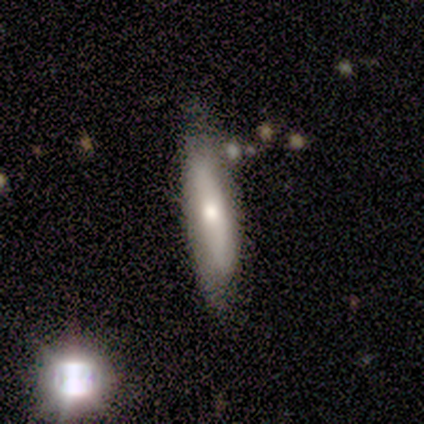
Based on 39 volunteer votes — This appears to be a smooth galaxy with no disk features (64%) that is cigar-shaped (64%). Merging: none (77%).